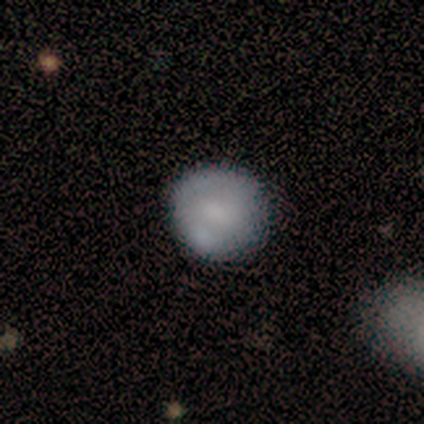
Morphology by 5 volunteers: type=smooth (100%); roundness=round (100%); merging=none (80%).